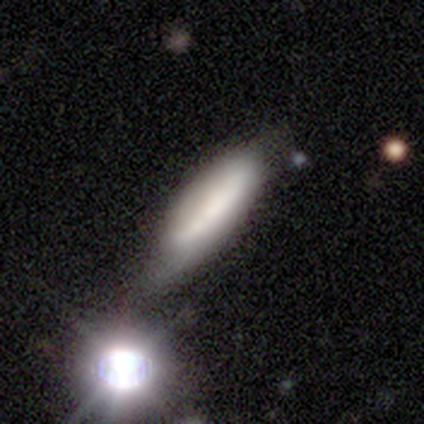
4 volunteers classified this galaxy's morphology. Smooth or featured: smooth — 50% (featured or disk — 25%)
How rounded: in between — 50% (tied with cigar-shaped — 50%)
Merging: none — 33% (tied with minor disturbance — 33%; major disturbance — 33%)